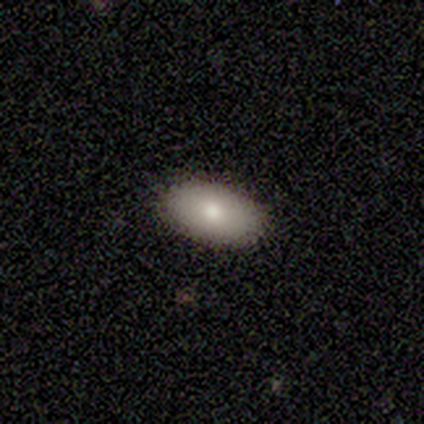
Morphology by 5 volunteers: smooth_or_featured: smooth (p=0.80) [alt: featured or disk p=0.20]
how_rounded: in between (p=0.75) [alt: round p=0.25]
merging: none (p=1.00)